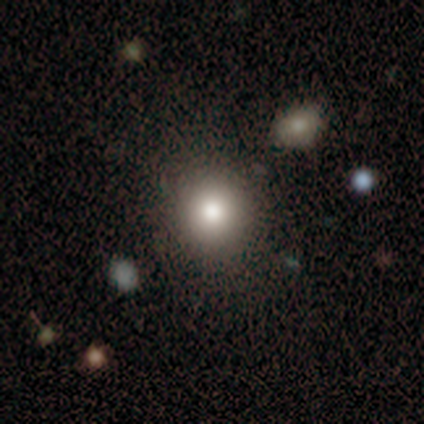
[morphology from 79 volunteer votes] Q: Smooth or featured?
A: smooth (82%); runner-up: featured or disk (10%)
Q: How rounded?
A: round (97%); runner-up: in between (3%)
Q: Merging?
A: none (48%); runner-up: merger (5%)